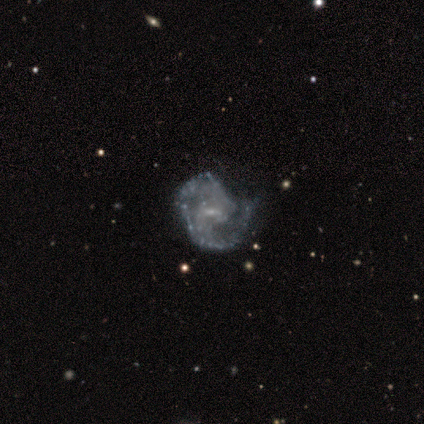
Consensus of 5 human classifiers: A featured or disk galaxy (80%) with a weak bar (50%), 1 (33%, tied with 2 and 3) medium (100%) spiral arms (75%) and a small central bulge (100%).

Vote fractions:
- Smooth or featured? featured or disk: 80% / star or artifact: 20% / smooth: 0%
- Edge-on disk? no: 100% / yes: 0%
- Bar? weak: 50% / strong: 25% / no: 25%
- Spiral arms? yes: 75% / no: 25%
- Spiral winding? medium: 100% / tight: 0% / loose: 0%
- Spiral arm count? 1: 33% (tied) / 2: 33% (tied) / 3: 33% (tied) / 4: 0% / more than 4: 0% / can't tell: 0%
- Bulge size? small: 100% / dominant: 0% / large: 0% / moderate: 0% / none: 0%
- Merging? none: 50% (tied) / minor disturbance: 50% (tied) / major disturbance: 0% / merger: 0%